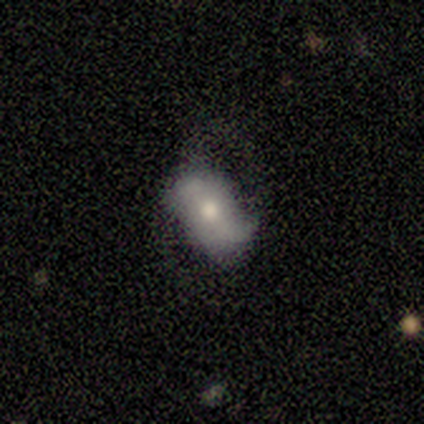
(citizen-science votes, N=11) A smooth galaxy with no disk features (55%) that is in between round and cigar-shaped (100%).

Vote fractions:
- Smooth or featured? smooth: 55% / featured or disk: 45% / star or artifact: 0%
- How rounded? in between: 100% / round: 0% / cigar-shaped: 0%
- Merging? none: 36% (tied) / major disturbance: 36% (tied) / minor disturbance: 27% / merger: 0%